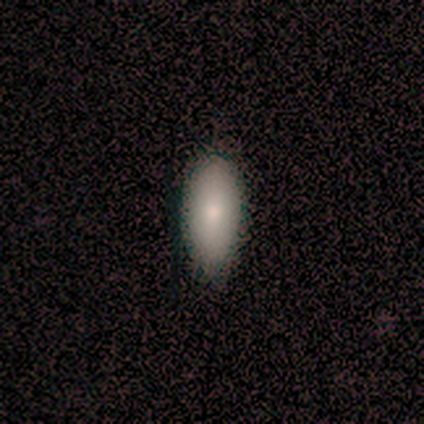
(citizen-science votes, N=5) A smooth galaxy with no disk features (100%) that is in between round and cigar-shaped (80%).

Vote fractions:
- Smooth or featured? smooth: 100% / featured or disk: 0% / star or artifact: 0%
- How rounded? in between: 80% / cigar-shaped: 20% / round: 0%
- Merging? none: 100% / minor disturbance: 0% / major disturbance: 0% / merger: 0%